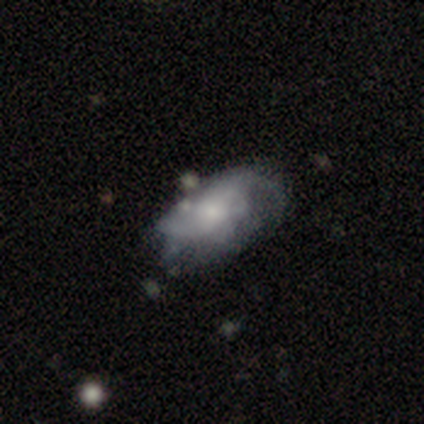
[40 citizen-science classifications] This is possibly a featured or disk galaxy (57%). It is clearly not viewed edge-on (96%). Bar: likely no (77%). Spiral arm pattern: possibly yes (59%). Spiral arm count: possibly can't tell (54%). Spiral winding: possibly loose (46%). Central bulge: possibly small (55%). Merging: marginally major disturbance (27%).